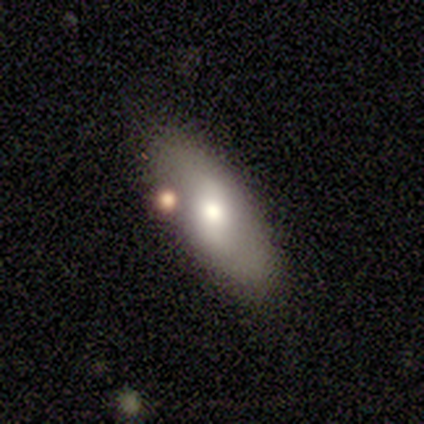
This appears to be a smooth galaxy with no disk features (67%) that is in between round and cigar-shaped (50%, tied with cigar-shaped). Merging: minor disturbance (67%).